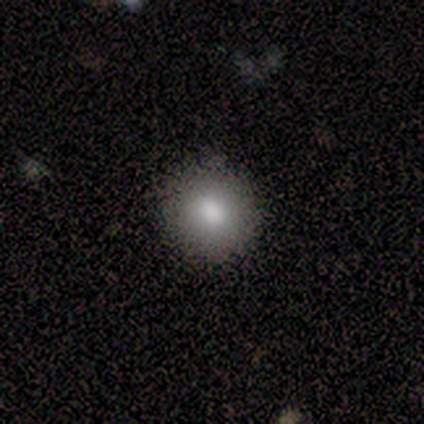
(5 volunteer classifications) This is clearly a smooth galaxy (80%). How rounded: clearly round (100%). Merging: clearly none (100%).